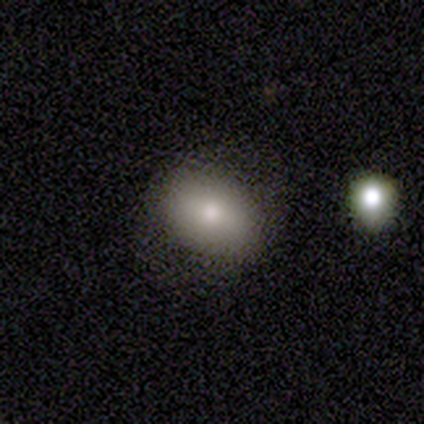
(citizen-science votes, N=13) Q: Smooth or featured?
A: smooth (85%); runner-up: star or artifact (15%)
Q: How rounded?
A: in between (73%); runner-up: round (27%)
Q: Merging?
A: none (82%); runner-up: major disturbance (9%)